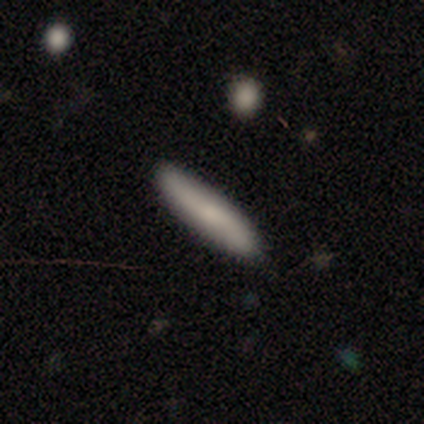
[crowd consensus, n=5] Smooth or featured: smooth — 80% (featured or disk — 20%)
How rounded: cigar-shaped — 100%
Merging: none — 100%